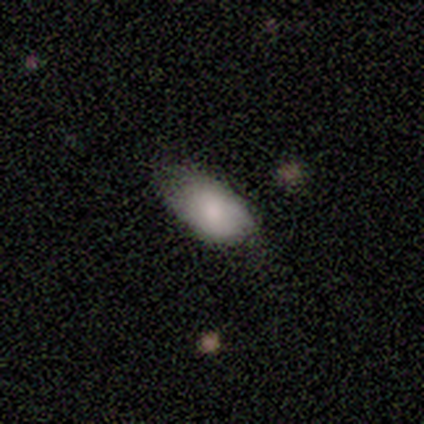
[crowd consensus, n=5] Morphology: type=smooth (100%); roundness=in between (80%); merging=none (80%).